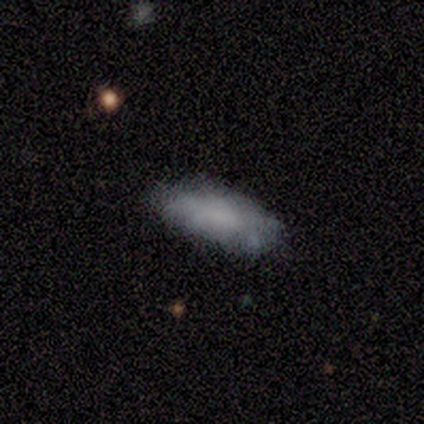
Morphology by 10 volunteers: smooth-or-featured: smooth: 70% | featured or disk: 30% | star or artifact: 0%
  how-rounded: in between: 71% | cigar-shaped: 29% | round: 0%
  merging: none: 70% | minor disturbance: 30% | major disturbance: 0% | merger: 0%